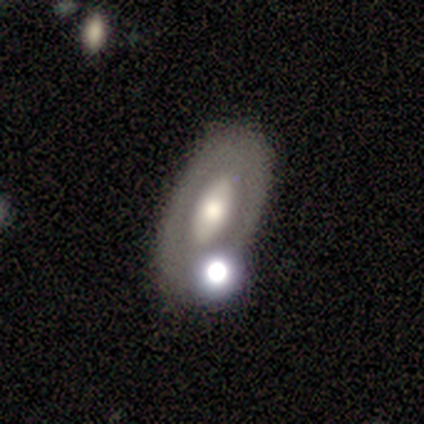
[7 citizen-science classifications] Q: Smooth or featured?
A: smooth (57%); runner-up: featured or disk (43%)
Q: How rounded?
A: in between (100%)
Q: Merging?
A: none (86%); runner-up: minor disturbance (14%)